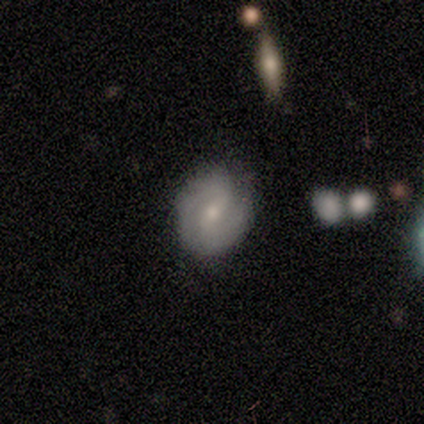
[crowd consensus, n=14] Smooth or featured? 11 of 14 (79%) said featured or disk. Edge-on disk? 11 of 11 (100%) said no. Bar? 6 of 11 (55%) said weak. Spiral arms? 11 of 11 (100%) said yes. Spiral winding? 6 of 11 (55%) said medium. Spiral arm count? 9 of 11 (82%) said 2. Bulge size? 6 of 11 (55%) said moderate. Merging? 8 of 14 (57%) said none.